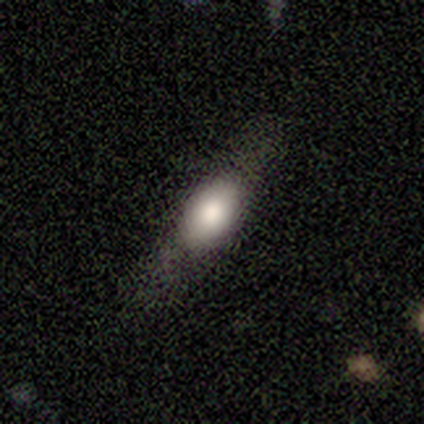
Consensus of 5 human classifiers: Q: Smooth or featured?
A: featured or disk (80%); runner-up: smooth (20%)
Q: Edge-on disk?
A: yes (100%)
Q: Edge-on bulge?
A: rounded (75%); runner-up: boxy (25%)
Q: Merging?
A: none (80%); runner-up: minor disturbance (20%)